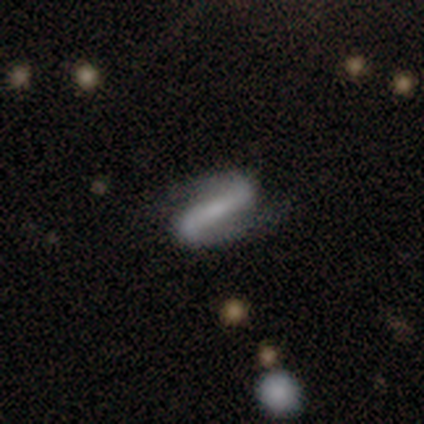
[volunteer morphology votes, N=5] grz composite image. It shows a featured or disk galaxy (80%) with a strong bar (100%), 2 (100%) medium (100%) spiral arms (100%) and a small central bulge (50%). Merging: none (100%).